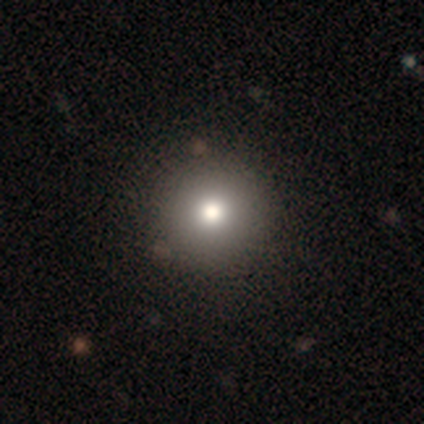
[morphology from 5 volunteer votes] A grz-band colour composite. It shows a smooth galaxy with no disk features (80%) that is round (75%). Merging: none (50%, tied with minor disturbance).